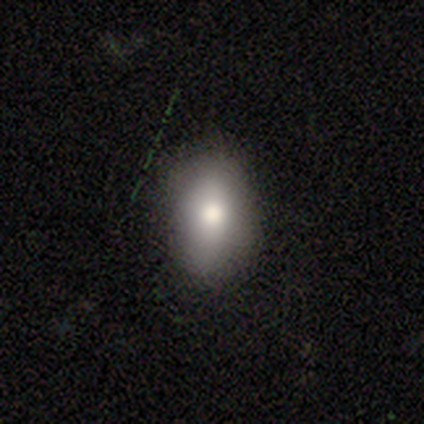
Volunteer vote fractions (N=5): This appears to be a smooth galaxy with no disk features (60%) that is in between round and cigar-shaped (67%). Merging: minor disturbance (75%).